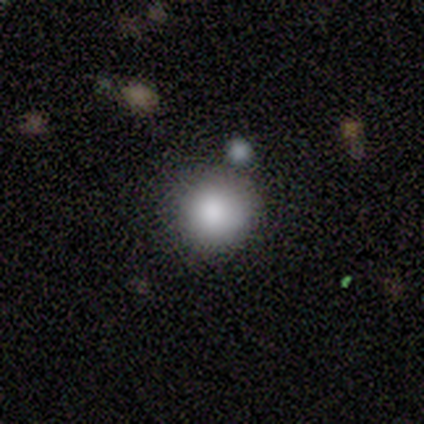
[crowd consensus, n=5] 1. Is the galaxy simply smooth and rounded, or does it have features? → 100% smooth, 0% featured or disk, 0% star or artifact.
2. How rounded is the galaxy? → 100% round, 0% in between, 0% cigar-shaped.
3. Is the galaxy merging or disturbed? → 100% none, 0% minor disturbance, 0% major disturbance, 0% merger.